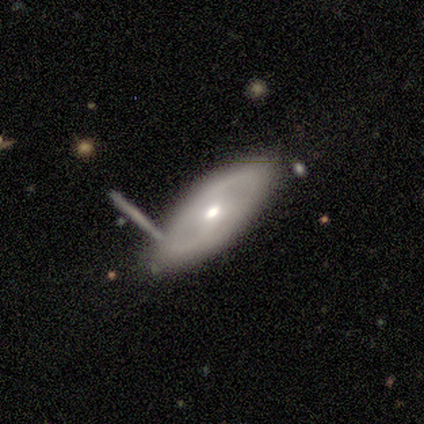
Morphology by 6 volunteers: Q: Smooth or featured?
A: featured or disk (67%); runner-up: smooth (33%)
Q: Edge-on disk?
A: no (75%); runner-up: yes (25%)
Q: Bar?
A: no (67%); runner-up: weak (33%)
Q: Spiral arms?
A: no (100%)
Q: Bulge size?
A: moderate (100%)
Q: Merging?
A: none (83%); runner-up: minor disturbance (17%)